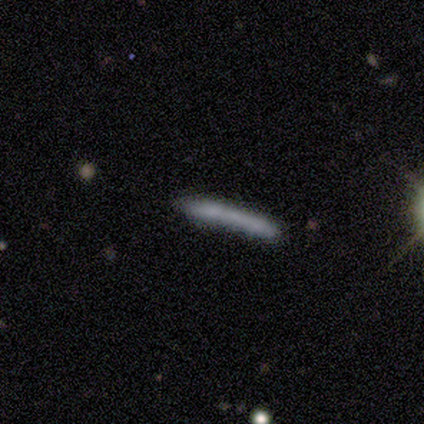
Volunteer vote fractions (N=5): Smooth or featured: smooth — 40% (tied with featured or disk — 40%)
How rounded: cigar-shaped — 100%
Merging: merger — 50% (none — 25%)